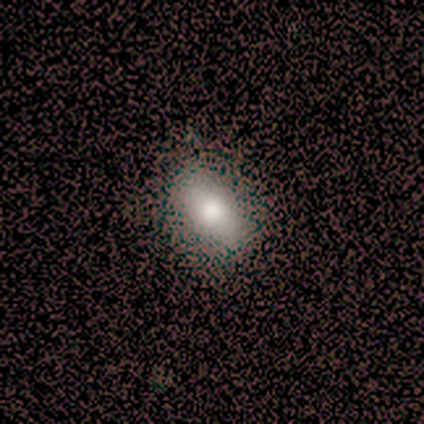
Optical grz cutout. It shows a smooth galaxy with no disk features (69%) that is in between round and cigar-shaped (93%). Merging: none (58%).